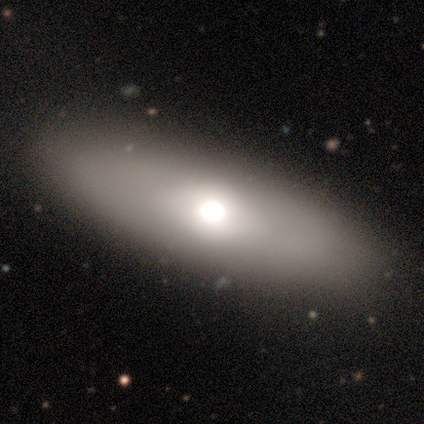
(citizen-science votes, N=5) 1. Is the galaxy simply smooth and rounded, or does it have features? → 60% smooth, 20% featured or disk, 20% star or artifact.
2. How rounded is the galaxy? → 67% in between, 33% cigar-shaped, 0% round.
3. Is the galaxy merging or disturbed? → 100% none, 0% minor disturbance, 0% major disturbance, 0% merger.